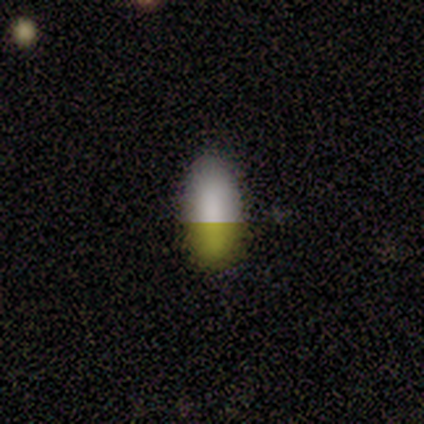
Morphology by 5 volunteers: This is likely a smooth galaxy (60%). How rounded: clearly in between (100%). Merging: clearly none (100%).